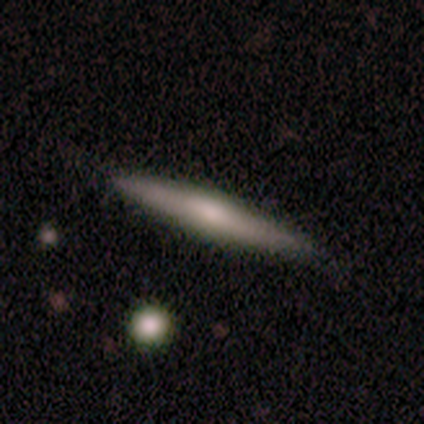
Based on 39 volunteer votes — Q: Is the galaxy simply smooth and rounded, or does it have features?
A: smooth — 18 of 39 (46%, tied with featured or disk).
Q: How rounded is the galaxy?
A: cigar-shaped — 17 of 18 (94%).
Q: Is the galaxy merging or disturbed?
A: none — 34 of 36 (94%).